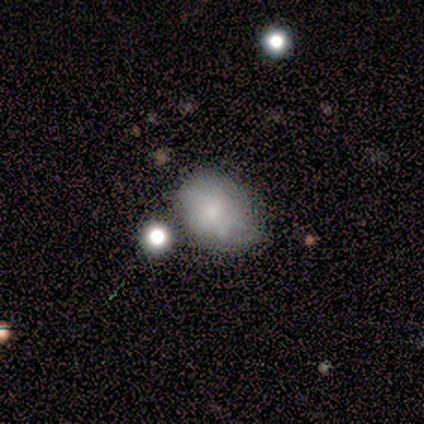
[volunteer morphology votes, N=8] smooth-or-featured: smooth: 50% | featured or disk: 38% | star or artifact: 12%
  how-rounded: in between: 75% | round: 25% | cigar-shaped: 0%
  merging: none: 86% | minor disturbance: 14% | major disturbance: 0% | merger: 0%